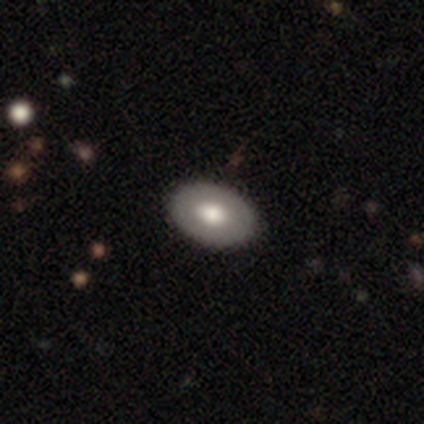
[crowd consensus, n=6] Volunteers were most divided on "smooth or featured" (2-way tie): smooth: 50%, featured or disk: 50%, star or artifact: 0%. More confident: how rounded — in between (100%); merging — none (83%).